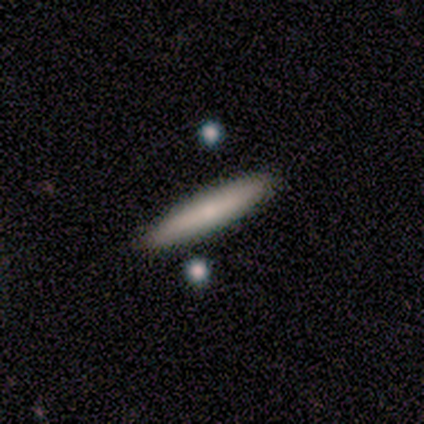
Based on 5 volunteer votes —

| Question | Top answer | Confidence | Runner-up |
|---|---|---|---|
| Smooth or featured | smooth | 80% | featured or disk (20%) |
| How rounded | cigar-shaped | 75% | in between (25%) |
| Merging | none | 80% | minor disturbance (20%) |